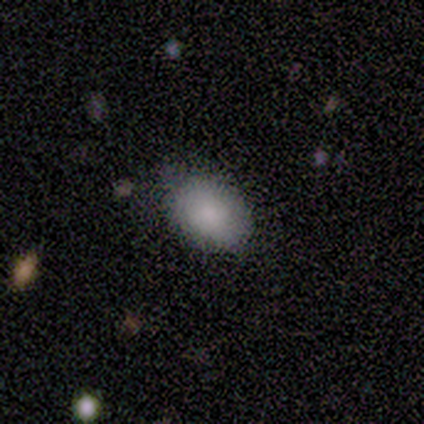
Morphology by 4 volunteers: A smooth galaxy with no disk features (100%) that is in between round and cigar-shaped (100%).

Vote fractions:
- Smooth or featured? smooth: 100% / featured or disk: 0% / star or artifact: 0%
- How rounded? in between: 100% / round: 0% / cigar-shaped: 0%
- Merging? none: 100% / minor disturbance: 0% / major disturbance: 0% / merger: 0%